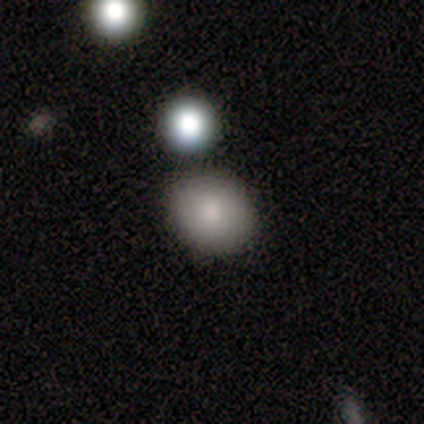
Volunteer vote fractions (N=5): A smooth galaxy with no disk features (80%) that is round (50%, tied with in between).

Vote fractions:
- Smooth or featured? smooth: 80% / star or artifact: 20% / featured or disk: 0%
- How rounded? round: 50% (tied) / in between: 50% (tied) / cigar-shaped: 0%
- Merging? none: 75% / major disturbance: 25% / minor disturbance: 0% / merger: 0%